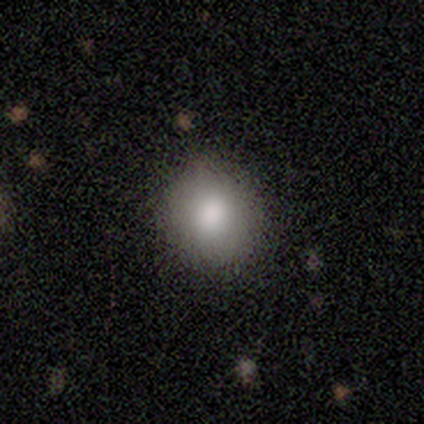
A smooth galaxy with no disk features (74%) that is round (86%). Merging: none (100%).